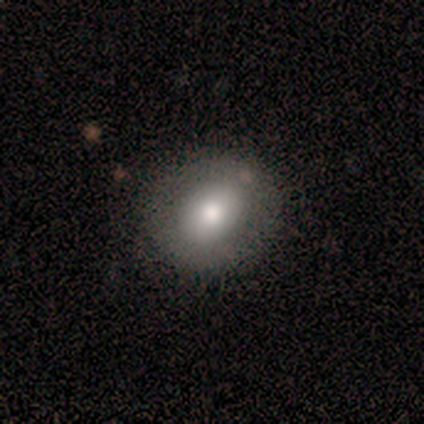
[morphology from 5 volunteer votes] Volunteers were most divided on "how rounded": round: 75%, in between: 25%, cigar-shaped: 0%. More confident: merging — none (100%); smooth or featured — smooth (80%).